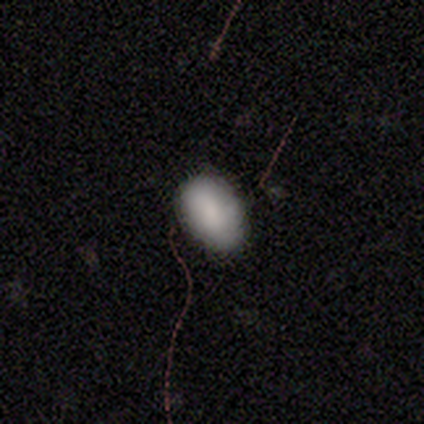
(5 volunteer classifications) Overall: smooth (60%; featured or disk 20%). How rounded: in between (100%). Merging: none (100%).